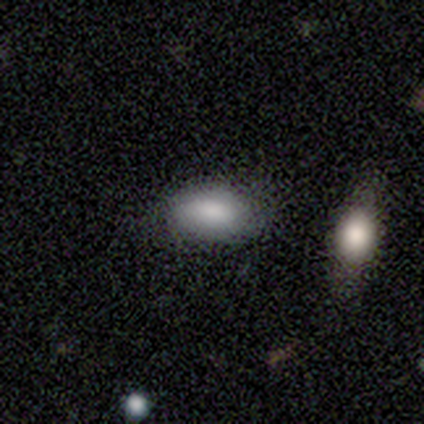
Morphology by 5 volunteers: This appears to be a smooth galaxy with no disk features (80%) that is in between round and cigar-shaped (75%). Merging: none (100%).